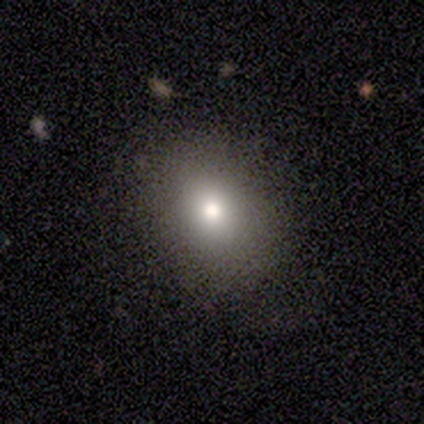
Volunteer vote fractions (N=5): Smooth or featured: smooth — 60% (star or artifact — 40%)
How rounded: round — 67% (in between — 33%)
Merging: none — 67% (minor disturbance — 33%)